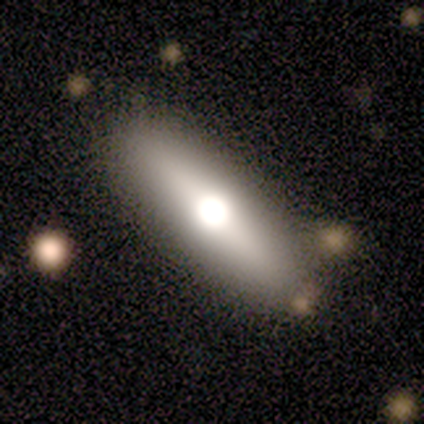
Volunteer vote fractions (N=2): Morphology: type=smooth (50%, tied with featured or disk); roundness=in between (100%); merging=none (100%).